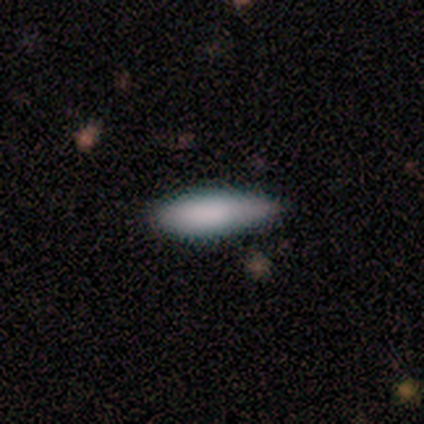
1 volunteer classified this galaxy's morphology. Smooth or featured? 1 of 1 (100%) said smooth. How rounded? 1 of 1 (100%) said cigar-shaped. Merging? 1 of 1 (100%) said none.